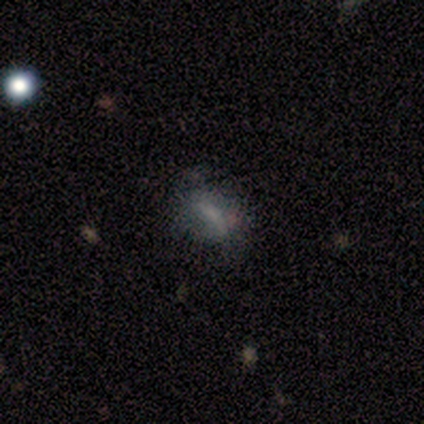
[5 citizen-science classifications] A smooth galaxy with no disk features (60%) that is in between round and cigar-shaped (67%).

Vote fractions:
- Smooth or featured? smooth: 60% / featured or disk: 20% / star or artifact: 20%
- How rounded? in between: 67% / round: 33% / cigar-shaped: 0%
- Merging? none: 50% / minor disturbance: 25% / major disturbance: 25% / merger: 0%